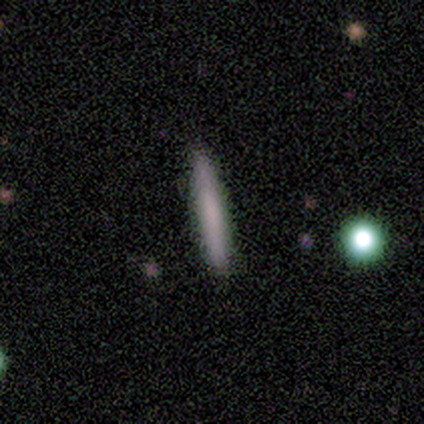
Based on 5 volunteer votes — This appears to be a smooth galaxy with no disk features (80%) that is cigar-shaped (100%). Merging: none (100%).